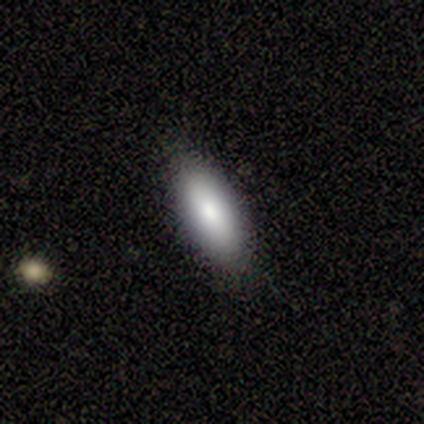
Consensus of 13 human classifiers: A smooth galaxy with no disk features (85%) that is in between round and cigar-shaped (55%). Merging: none (83%).